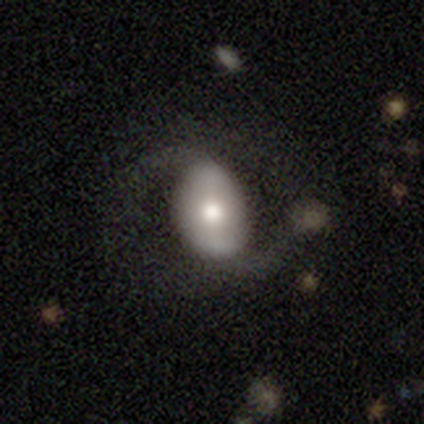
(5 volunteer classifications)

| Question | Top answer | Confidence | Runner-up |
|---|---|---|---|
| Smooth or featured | smooth | 60% | featured or disk (40%) |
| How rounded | in between | 100% | — |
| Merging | none | 60% | minor disturbance (40%) |